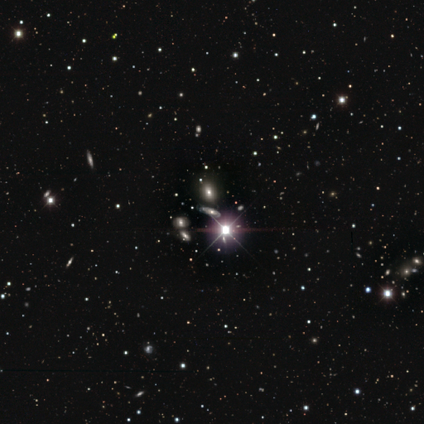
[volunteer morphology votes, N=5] Volunteers were most divided on "smooth or featured": star or artifact: 60%, smooth: 20%, featured or disk: 20%.